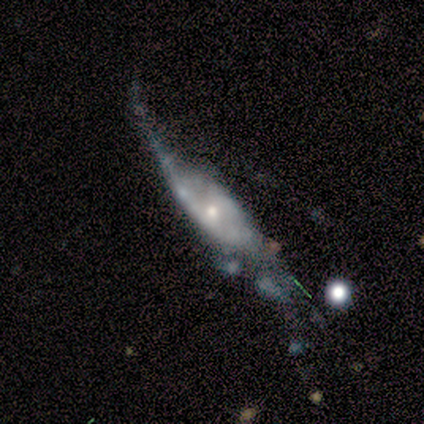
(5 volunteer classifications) Smooth or featured? 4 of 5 (80%) said featured or disk. Edge-on disk? 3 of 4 (75%) said yes. Edge-on bulge? 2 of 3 (67%) said rounded. Merging? 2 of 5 (40%, tied with major disturbance) said minor disturbance.